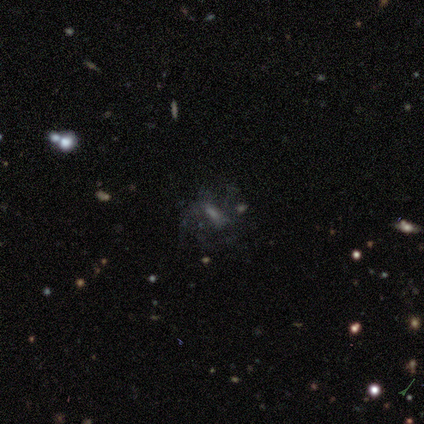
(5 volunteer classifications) smooth 40% (tied), star or artifact 40% (tied), featured or disk 20%. Down the decision tree: how rounded — in between (100%); merging — none (67%).